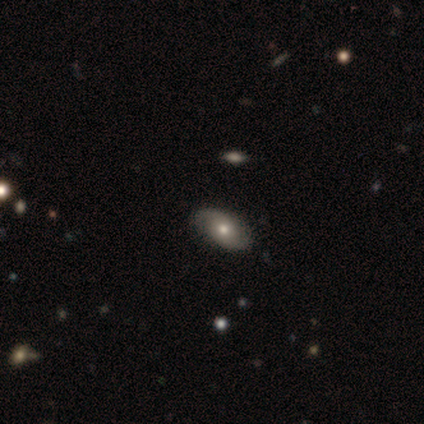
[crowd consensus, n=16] This is possibly a featured or disk galaxy (50%). It is clearly not viewed edge-on (88%). Bar: clearly no (86%). Spiral arm pattern: clearly yes (100%). Spiral arm count: clearly 2 (86%). Spiral winding: possibly tight (57%). Central bulge: likely moderate (71%). Merging: clearly none (86%).